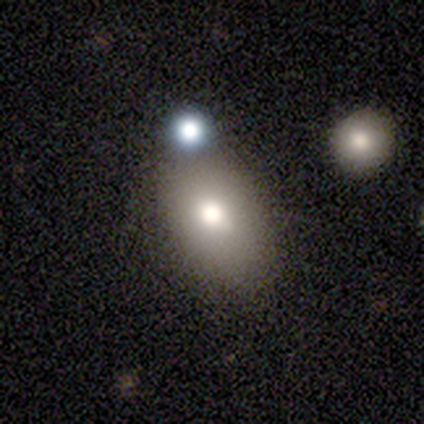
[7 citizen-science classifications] Smooth or featured?
  - smooth: 71% *
  - featured or disk: 14%
  - star or artifact: 14%
How rounded?
  - in between: 80% *
  - round: 20%
  - cigar-shaped: 0%
Merging?
  - none: 33% * (tied)
  - minor disturbance: 33% * (tied)
  - merger: 33% * (tied)
  - major disturbance: 0%